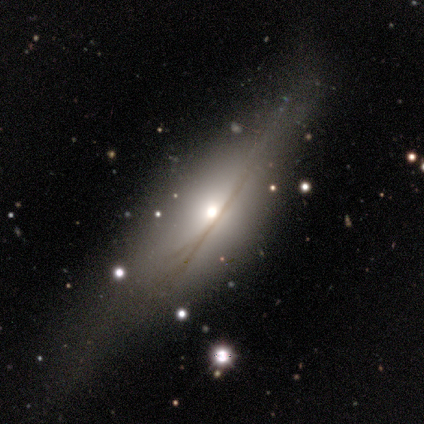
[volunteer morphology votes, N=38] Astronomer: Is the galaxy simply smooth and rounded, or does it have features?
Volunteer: featured or disk — 79%.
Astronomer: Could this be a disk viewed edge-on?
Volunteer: yes — 70%.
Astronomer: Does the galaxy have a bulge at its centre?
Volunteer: rounded — 81%.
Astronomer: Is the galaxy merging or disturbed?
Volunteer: none — 58%.